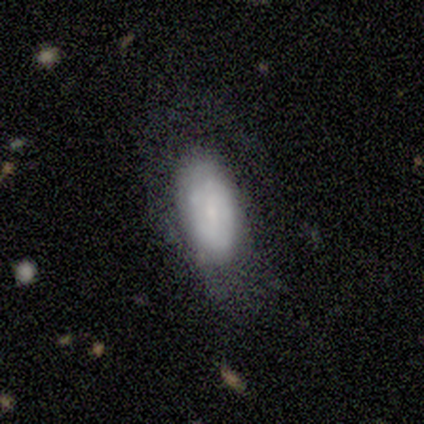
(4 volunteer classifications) smooth-or-featured: smooth: 75% | featured or disk: 25% | star or artifact: 0%
  how-rounded: in between: 100% | round: 0% | cigar-shaped: 0%
  merging: none: 50% | minor disturbance: 25% | major disturbance: 25% | merger: 0%